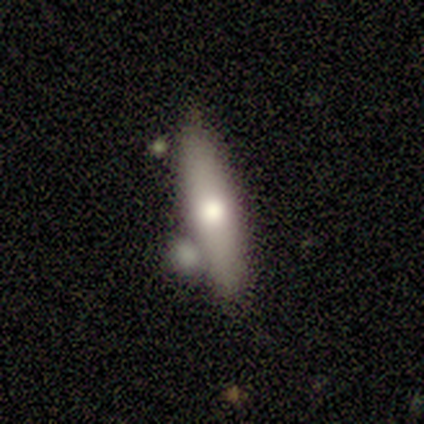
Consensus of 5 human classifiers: This appears to be a smooth galaxy with no disk features (80%) that is in between round and cigar-shaped (50%, tied with cigar-shaped). Merging: none (80%).